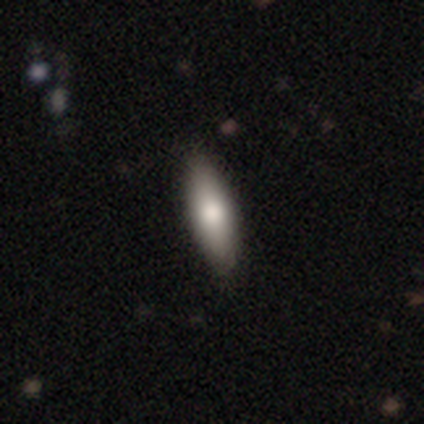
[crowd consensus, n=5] smooth-or-featured: smooth: 60% | featured or disk: 40% | star or artifact: 0%
  how-rounded: cigar-shaped: 67% | in between: 33% | round: 0%
  merging: none: 40% (tied) | minor disturbance: 40% (tied) | merger: 20% | major disturbance: 0%